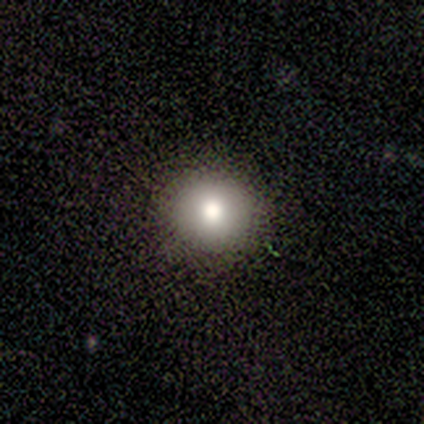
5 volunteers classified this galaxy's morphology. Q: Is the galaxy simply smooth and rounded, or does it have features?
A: smooth — 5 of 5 (100%).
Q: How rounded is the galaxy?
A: round — 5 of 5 (100%).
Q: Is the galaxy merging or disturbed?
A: none — 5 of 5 (100%).